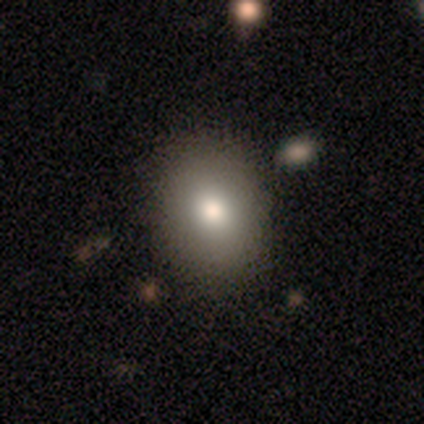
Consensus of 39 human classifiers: This is likely a smooth galaxy (69%). How rounded: likely in between (63%). Merging: clearly none (85%).